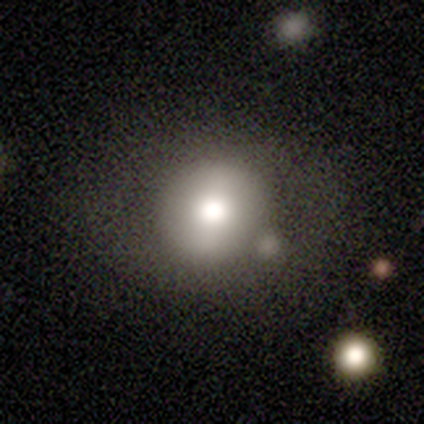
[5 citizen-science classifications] A smooth galaxy with no disk features (100%) that is round (80%). Merging: none (40%, tied with minor disturbance).